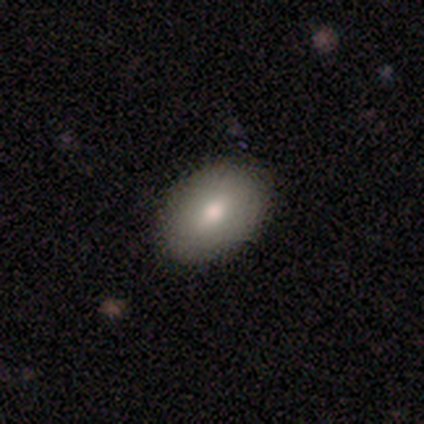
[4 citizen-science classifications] smooth_or_featured: smooth (p=1.00)
how_rounded: in between (p=1.00)
merging: none (p=1.00)